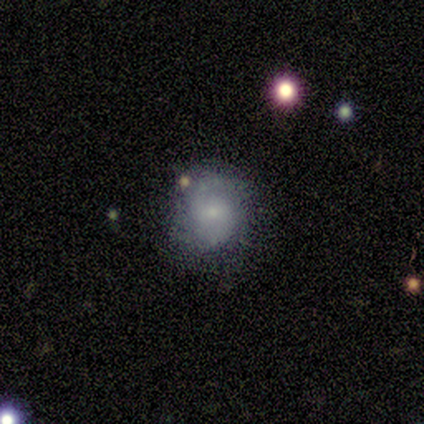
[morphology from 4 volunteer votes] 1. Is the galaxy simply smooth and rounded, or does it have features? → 75% smooth, 25% featured or disk, 0% star or artifact.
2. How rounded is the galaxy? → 67% round, 33% in between, 0% cigar-shaped.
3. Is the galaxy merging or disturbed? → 100% none, 0% minor disturbance, 0% major disturbance, 0% merger.